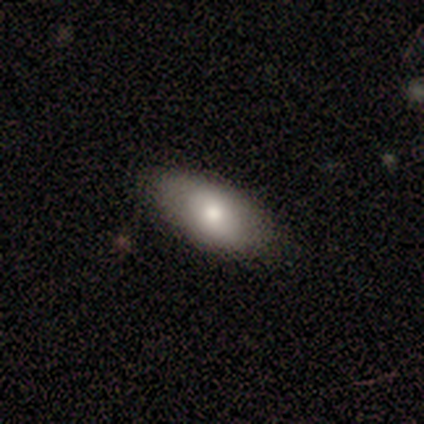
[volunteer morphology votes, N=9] Q: Smooth or featured?
A: smooth (56%); runner-up: featured or disk (33%)
Q: How rounded?
A: in between (80%); runner-up: round (20%)
Q: Merging?
A: none (100%)